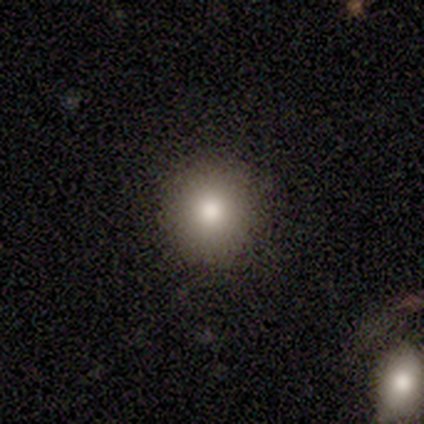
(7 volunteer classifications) A smooth galaxy with no disk features (86%) that is round (100%).

Vote fractions:
- Smooth or featured? smooth: 86% / star or artifact: 14% / featured or disk: 0%
- How rounded? round: 100% / in between: 0% / cigar-shaped: 0%
- Merging? none: 100% / minor disturbance: 0% / major disturbance: 0% / merger: 0%